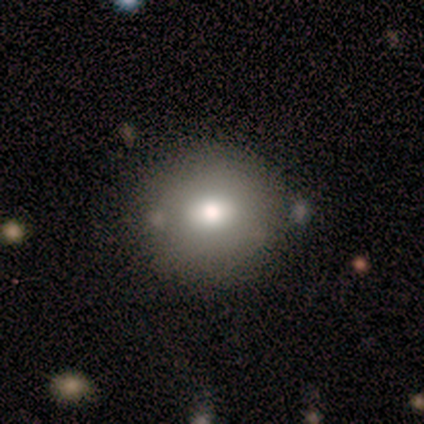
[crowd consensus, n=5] A smooth galaxy with no disk features (80%) that is round (100%).

Vote fractions:
- Smooth or featured? smooth: 80% / star or artifact: 20% / featured or disk: 0%
- How rounded? round: 100% / in between: 0% / cigar-shaped: 0%
- Merging? none: 75% / merger: 25% / minor disturbance: 0% / major disturbance: 0%